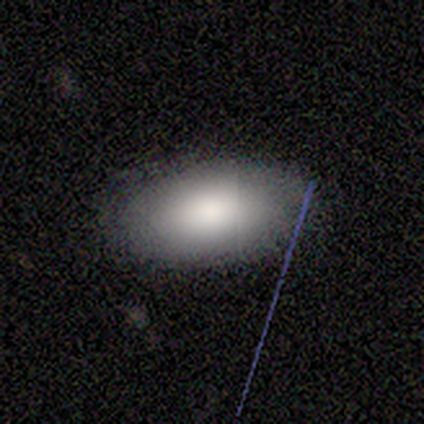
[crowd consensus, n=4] Smooth or featured?
  - smooth: 100% *
  - featured or disk: 0%
  - star or artifact: 0%
How rounded?
  - in between: 100% *
  - round: 0%
  - cigar-shaped: 0%
Merging?
  - none: 100% *
  - minor disturbance: 0%
  - major disturbance: 0%
  - merger: 0%